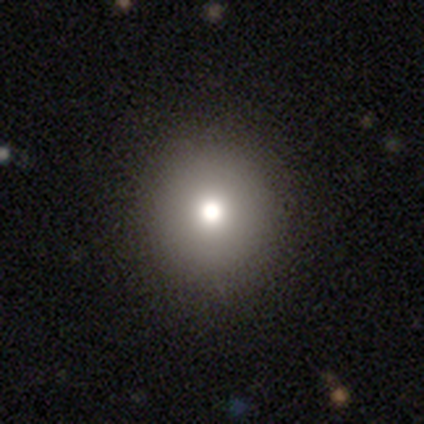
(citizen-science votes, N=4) Morphology: type=smooth (50%, tied with star or artifact); roundness=round (100%); merging=none (100%).